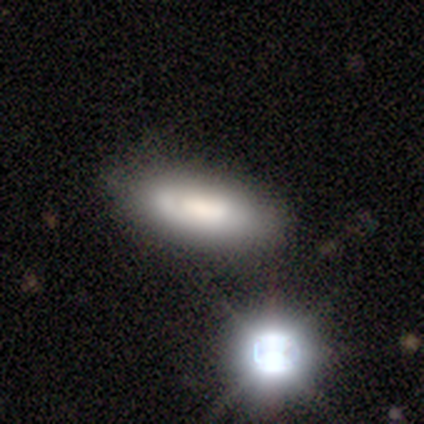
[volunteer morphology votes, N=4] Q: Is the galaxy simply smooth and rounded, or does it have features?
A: smooth — 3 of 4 (75%).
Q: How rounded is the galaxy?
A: in between — 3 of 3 (100%).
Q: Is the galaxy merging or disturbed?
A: none — 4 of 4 (100%).